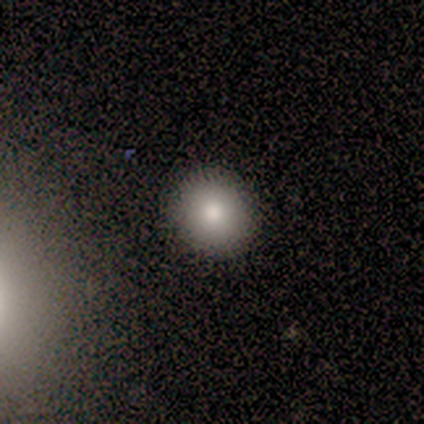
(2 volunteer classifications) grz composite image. It shows a smooth galaxy with no disk features (50%, tied with star or artifact) that is round (100%). Merging: none (100%).